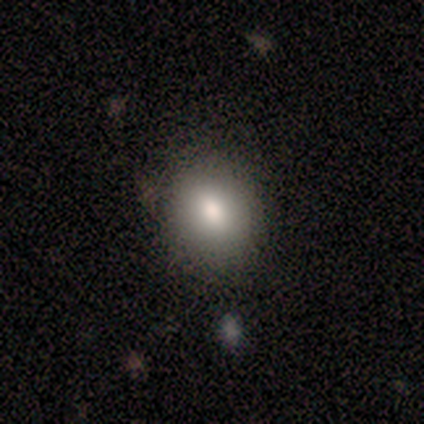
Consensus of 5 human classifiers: Volunteers were most divided on "how rounded": in between: 60%, round: 40%, cigar-shaped: 0%. More confident: smooth or featured — smooth (100%); merging — none (80%).